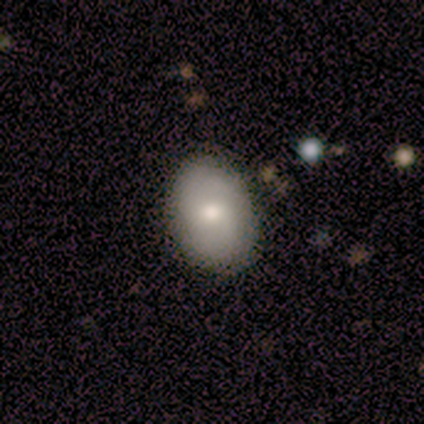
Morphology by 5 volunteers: Smooth or featured? 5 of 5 (100%) said smooth. How rounded? 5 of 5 (100%) said in between. Merging? 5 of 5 (100%) said none.